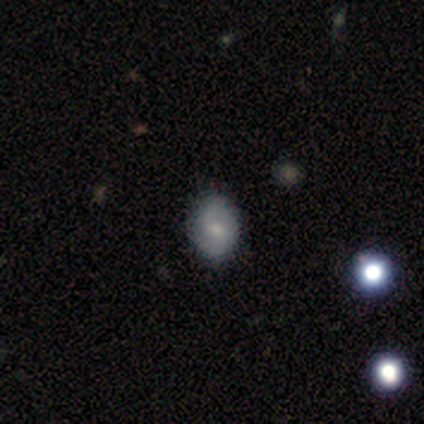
A smooth galaxy with no disk features (71%) that is round (60%).

Vote fractions:
- Smooth or featured? smooth: 71% / featured or disk: 29% / star or artifact: 0%
- How rounded? round: 60% / in between: 40% / cigar-shaped: 0%
- Merging? none: 57% / minor disturbance: 43% / major disturbance: 0% / merger: 0%